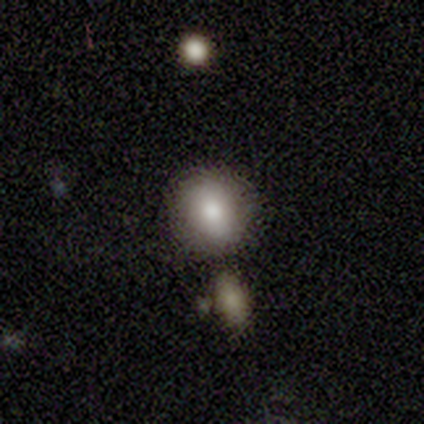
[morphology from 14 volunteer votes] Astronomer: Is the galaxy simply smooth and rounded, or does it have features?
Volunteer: smooth — 64%.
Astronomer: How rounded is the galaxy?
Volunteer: round — 78%.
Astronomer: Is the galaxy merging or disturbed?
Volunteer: none — 92%.